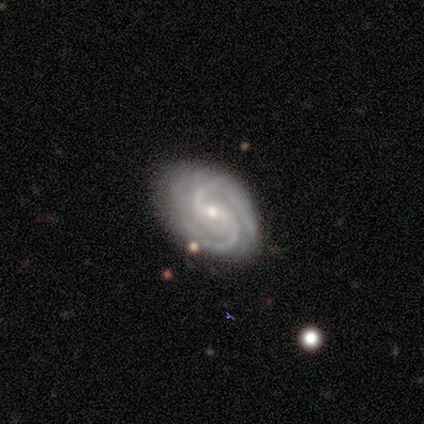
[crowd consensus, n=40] Volunteers were most divided on "bar": weak: 47%, strong: 32%, no: 21%. More confident: spiral arms — yes (100%); smooth or featured — featured or disk (98%); edge-on disk — no (97%); merging — none (82%); spiral arm count — 2 (66%); bulge size — small (63%); spiral winding — tight (58%).